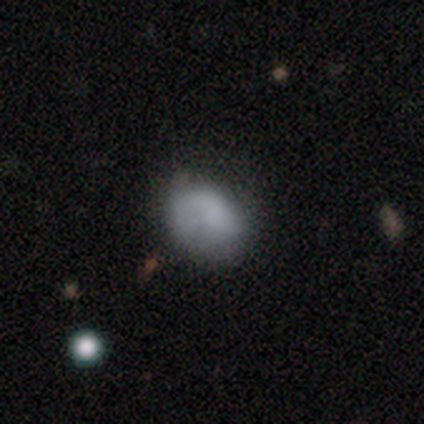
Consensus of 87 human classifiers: Smooth or featured? 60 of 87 (69%) said smooth. How rounded? 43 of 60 (72%) said in between. Merging? 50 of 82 (61%) said none.